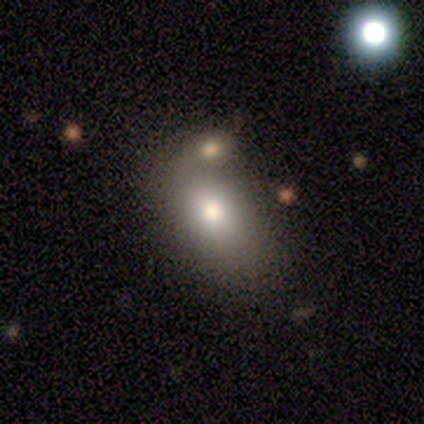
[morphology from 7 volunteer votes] Overall: smooth (86%). How rounded: in between (100%). Merging: none (57%; merger 29%).